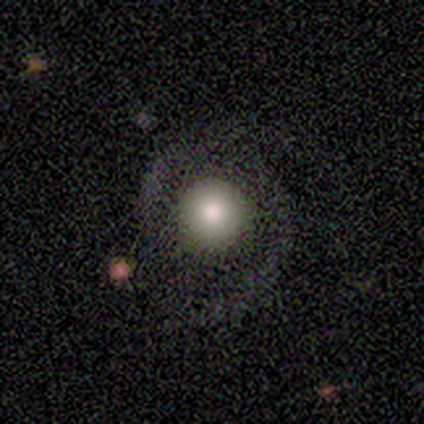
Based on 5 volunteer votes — Smooth or featured? smooth (60%)
How rounded? round (100%)
Merging? none (40%, tied with major disturbance)